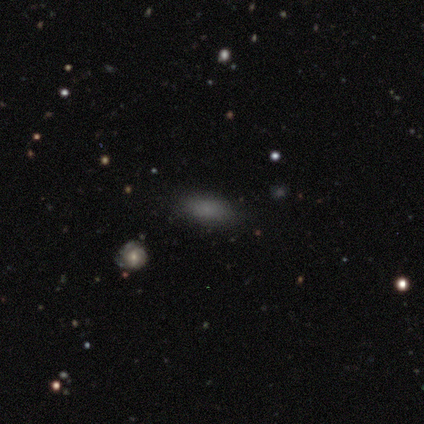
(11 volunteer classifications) Volunteers were most divided on "merging": none: 60%, minor disturbance: 30%, major disturbance: 10%, merger: 0%. More confident: smooth or featured — smooth (91%); how rounded — in between (80%).